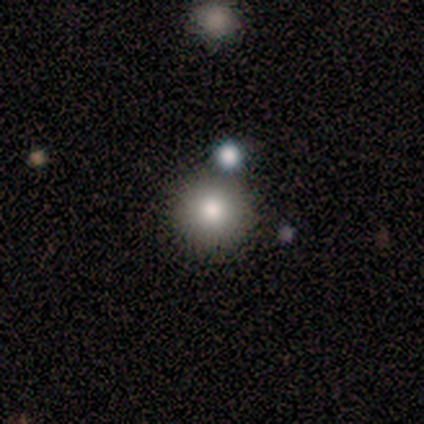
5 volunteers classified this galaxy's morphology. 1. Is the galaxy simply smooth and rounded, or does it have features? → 80% smooth, 20% star or artifact, 0% featured or disk.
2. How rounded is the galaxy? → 100% round, 0% in between, 0% cigar-shaped.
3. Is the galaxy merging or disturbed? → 100% none, 0% minor disturbance, 0% major disturbance, 0% merger.